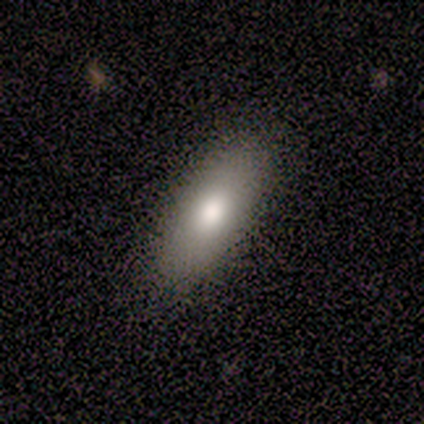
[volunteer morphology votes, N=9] This is clearly a smooth galaxy (100%). How rounded: likely in between (78%). Merging: clearly none (89%).